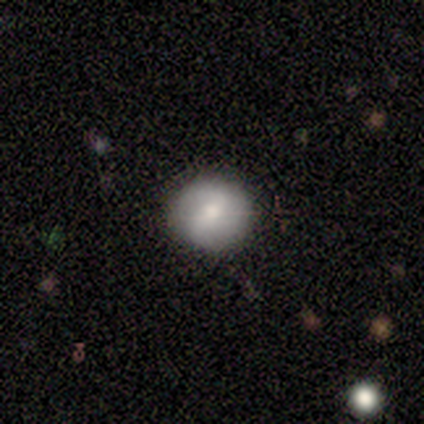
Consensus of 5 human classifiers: Q: Smooth or featured?
A: smooth (100%)
Q: How rounded?
A: round (80%); runner-up: cigar-shaped (20%)
Q: Merging?
A: none (60%); runner-up: minor disturbance (40%)